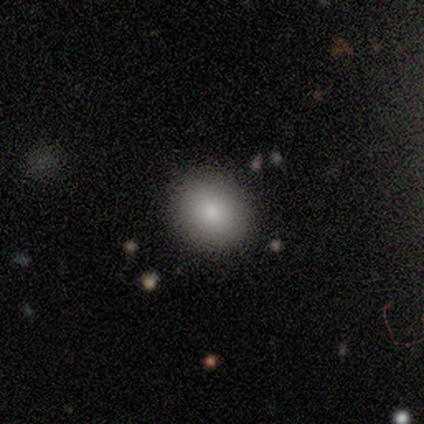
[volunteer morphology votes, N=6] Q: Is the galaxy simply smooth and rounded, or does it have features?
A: smooth — 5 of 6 (83%).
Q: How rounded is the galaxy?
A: round — 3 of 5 (60%).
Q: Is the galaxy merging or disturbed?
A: none — 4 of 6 (67%).